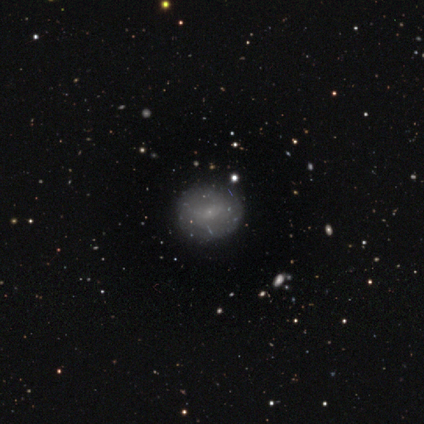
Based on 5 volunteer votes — Smooth or featured: smooth — 60% (featured or disk — 20%)
How rounded: round — 67% (in between — 33%)
Merging: none — 100%